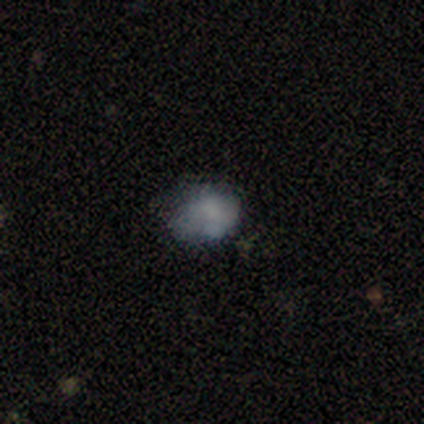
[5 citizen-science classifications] smooth-or-featured: smooth: 80% | star or artifact: 20% | featured or disk: 0%
  how-rounded: in between: 100% | round: 0% | cigar-shaped: 0%
  merging: none: 100% | minor disturbance: 0% | major disturbance: 0% | merger: 0%